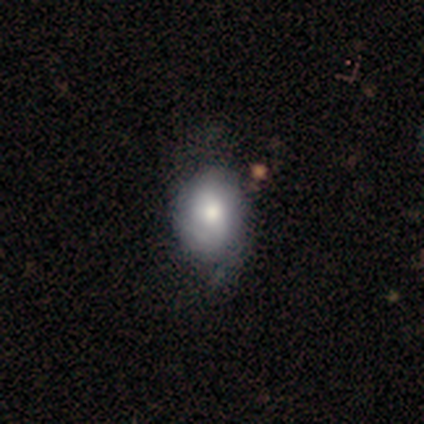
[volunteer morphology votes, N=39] Volunteers were most divided on "merging": none: 43%, minor disturbance: 19%, major disturbance: 5%, merger: 3%. More confident: how rounded — in between (81%); smooth or featured — smooth (67%).